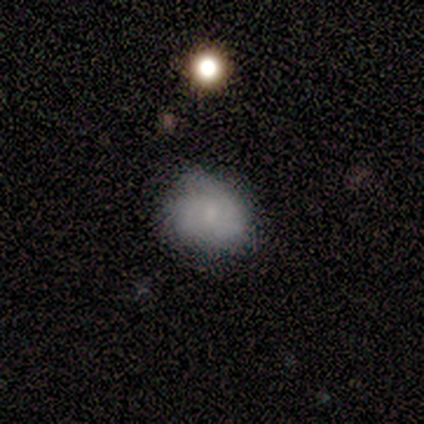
A smooth galaxy with no disk features (60%) that is in between round and cigar-shaped (100%).

Vote fractions:
- Smooth or featured? smooth: 60% / featured or disk: 40% / star or artifact: 0%
- How rounded? in between: 100% / round: 0% / cigar-shaped: 0%
- Merging? none: 100% / minor disturbance: 0% / major disturbance: 0% / merger: 0%